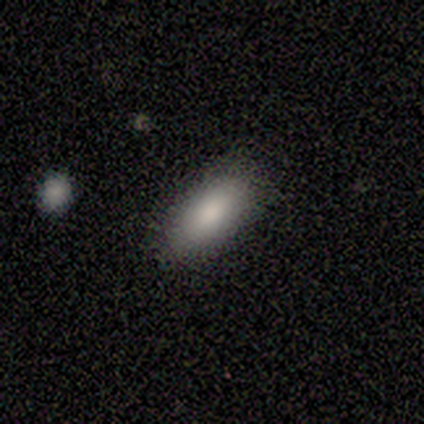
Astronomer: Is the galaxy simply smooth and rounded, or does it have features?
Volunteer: smooth — 92%.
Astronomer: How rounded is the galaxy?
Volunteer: in between — 91%.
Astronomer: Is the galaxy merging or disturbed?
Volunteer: none — 83%.